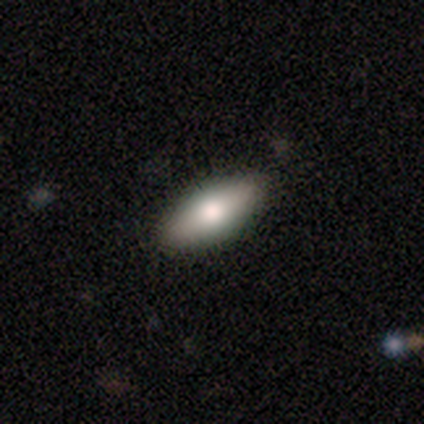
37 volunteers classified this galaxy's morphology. Smooth or featured: smooth — 68% (featured or disk — 24%)
How rounded: in between — 72% (cigar-shaped — 20%)
Merging: none — 88% (minor disturbance — 6%)